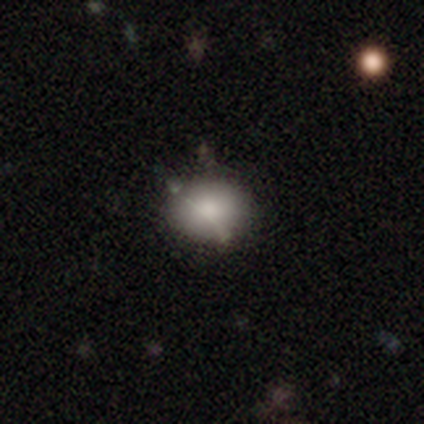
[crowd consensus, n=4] Smooth or featured?
  - smooth: 50% * (tied)
  - star or artifact: 50% * (tied)
  - featured or disk: 0%
How rounded?
  - round: 50% * (tied)
  - in between: 50% * (tied)
  - cigar-shaped: 0%
Merging?
  - none: 50% * (tied)
  - minor disturbance: 50% * (tied)
  - major disturbance: 0%
  - merger: 0%